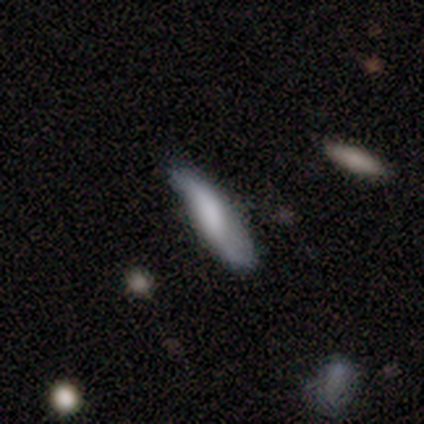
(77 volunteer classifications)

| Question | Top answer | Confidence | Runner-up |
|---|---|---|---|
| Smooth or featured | smooth | 55% | featured or disk (43%) |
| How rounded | cigar-shaped | 64% | in between (36%) |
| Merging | minor disturbance | 24% | none (21%) |